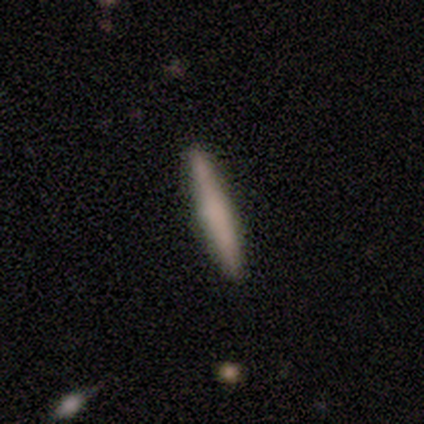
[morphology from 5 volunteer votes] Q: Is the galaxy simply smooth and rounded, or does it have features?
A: smooth — 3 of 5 (60%).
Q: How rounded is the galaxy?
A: cigar-shaped — 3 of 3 (100%).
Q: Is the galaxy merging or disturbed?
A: none — 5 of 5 (100%).